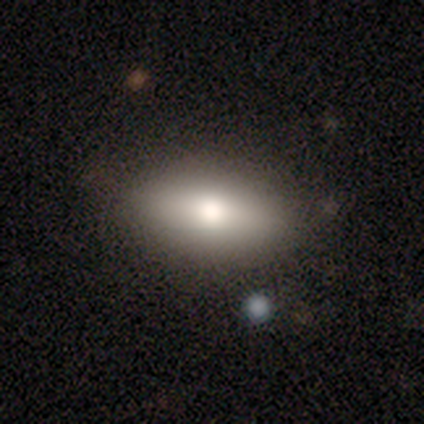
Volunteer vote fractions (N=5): Overall: smooth (80%). How rounded: in between (75%). Merging: none (80%).